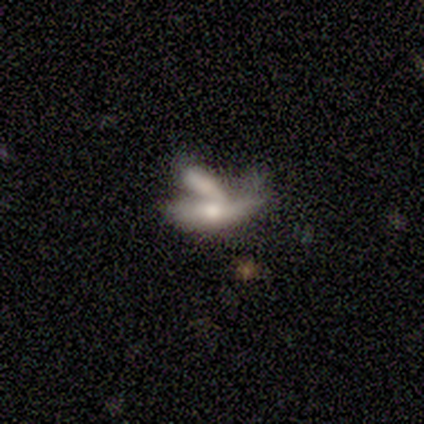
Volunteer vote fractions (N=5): Volunteers were most divided on "smooth or featured": featured or disk: 60%, smooth: 40%, star or artifact: 0%. Remaining: edge-on disk — yes (100%); edge-on bulge — rounded (67%); merging — merger (40%).